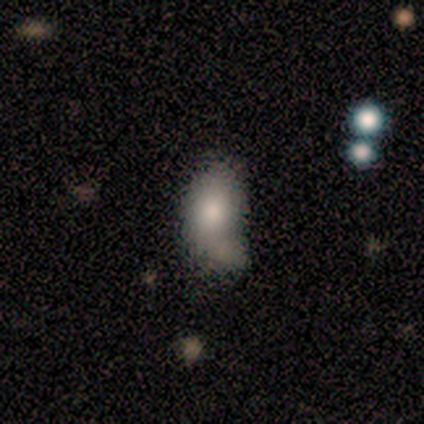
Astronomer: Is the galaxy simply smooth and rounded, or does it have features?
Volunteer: smooth — 60% (runner-up: featured or disk, 40%).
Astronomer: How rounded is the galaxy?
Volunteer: in between — 67%.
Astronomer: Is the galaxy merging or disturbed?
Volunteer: merger — 60%.